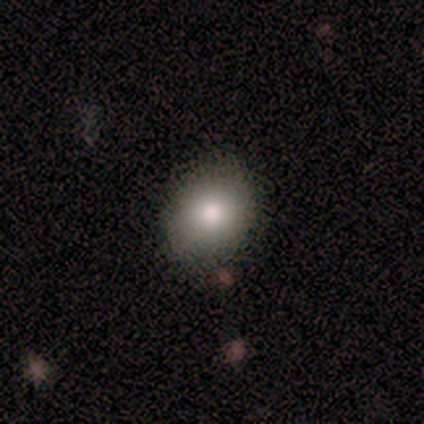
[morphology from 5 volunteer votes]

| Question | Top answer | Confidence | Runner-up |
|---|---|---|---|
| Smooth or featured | smooth | 80% | featured or disk (20%) |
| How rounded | in between | 75% | round (25%) |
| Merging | none | 60% | minor disturbance (40%) |